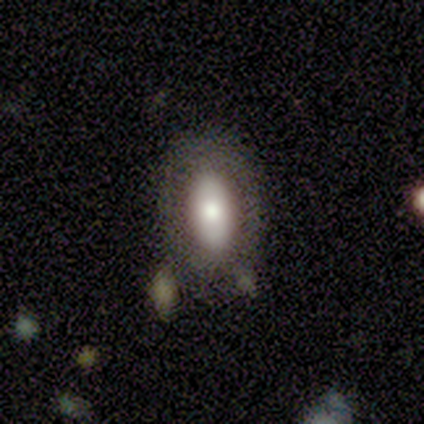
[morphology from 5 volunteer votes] smooth 40% (tied), featured or disk 40% (tied), star or artifact 20%. Down the decision tree: how rounded — in between (100%); merging — none (50%).